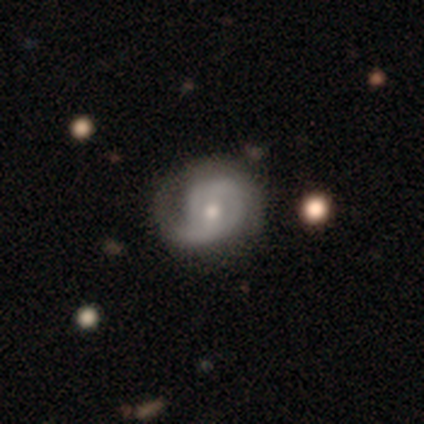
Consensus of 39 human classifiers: Overall: featured or disk (90%). Edge-on disk: no (100%). Bar: no (54%; weak 34%). Spiral arms: yes (97%). Spiral arm count: 2 (53%; 1 24%). Spiral winding: tight (50%; medium 29%). Bulge size: moderate (69%). Merging: none (56%).